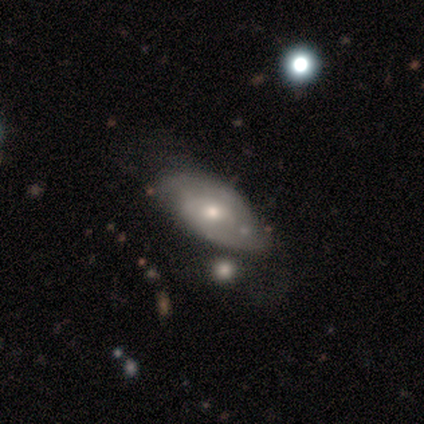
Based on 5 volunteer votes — Smooth or featured?
  - smooth: 40% * (tied)
  - featured or disk: 40% * (tied)
  - star or artifact: 20%
How rounded?
  - in between: 100% *
  - round: 0%
  - cigar-shaped: 0%
Merging?
  - merger: 50% *
  - none: 25%
  - major disturbance: 25%
  - minor disturbance: 0%